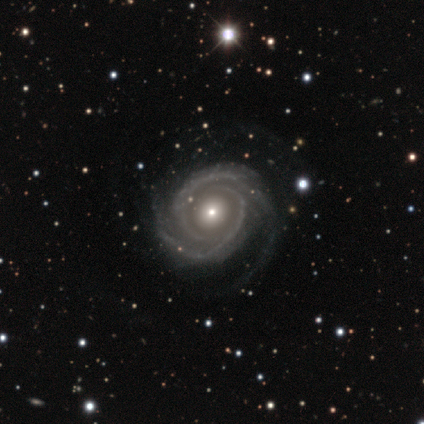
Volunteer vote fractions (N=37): Morphology: type=featured or disk (92%); edge-on=no (100%); bar=no (88%); spiral arms=yes (100%); winding=tight (71%); arm count=2 (62%); bulge=small (59%); merging=none (63%).